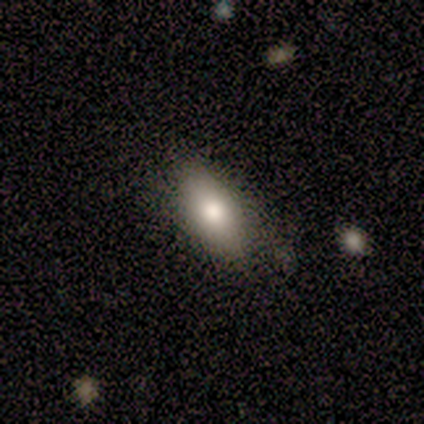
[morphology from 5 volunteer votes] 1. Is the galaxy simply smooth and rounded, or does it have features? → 80% smooth, 20% featured or disk, 0% star or artifact.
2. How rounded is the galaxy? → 75% in between, 25% cigar-shaped, 0% round.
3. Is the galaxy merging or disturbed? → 60% none, 20% minor disturbance, 20% major disturbance, 0% merger.